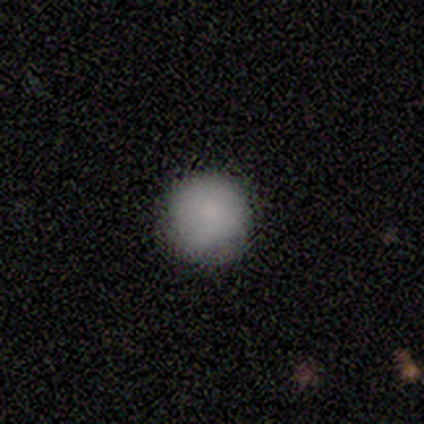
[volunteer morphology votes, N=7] Q: Smooth or featured?
A: smooth (100%)
Q: How rounded?
A: round (86%); runner-up: in between (14%)
Q: Merging?
A: none (57%); runner-up: minor disturbance (43%)